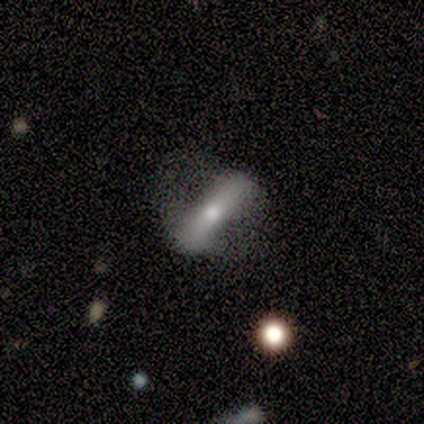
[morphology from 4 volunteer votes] Smooth or featured? featured or disk (75%)
Edge-on disk? no (67%)
Bar? strong (100%)
Spiral arms? yes (50%, tied with no)
Spiral winding? loose (100%)
Spiral arm count? 2 (100%)
Bulge size? moderate (50%, tied with small)
Merging? minor disturbance (50%)